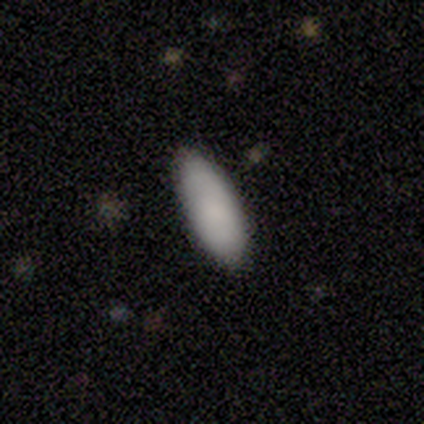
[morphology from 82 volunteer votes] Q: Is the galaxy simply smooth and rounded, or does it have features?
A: smooth — 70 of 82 (85%).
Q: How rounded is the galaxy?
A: in between — 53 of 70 (76%).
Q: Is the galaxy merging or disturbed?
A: none — 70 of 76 (92%).